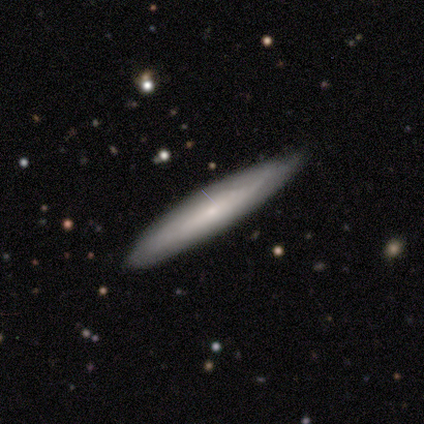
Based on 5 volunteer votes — This appears to be a smooth galaxy with no disk features (80%) that is cigar-shaped (100%). Merging: none (80%).